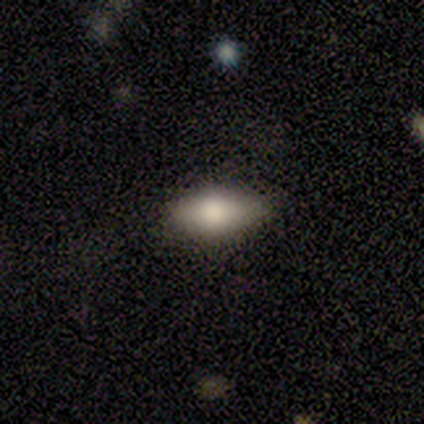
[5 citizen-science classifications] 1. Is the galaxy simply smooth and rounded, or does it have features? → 60% smooth, 40% star or artifact, 0% featured or disk.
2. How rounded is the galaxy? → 100% in between, 0% round, 0% cigar-shaped.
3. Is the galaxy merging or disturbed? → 100% none, 0% minor disturbance, 0% major disturbance, 0% merger.